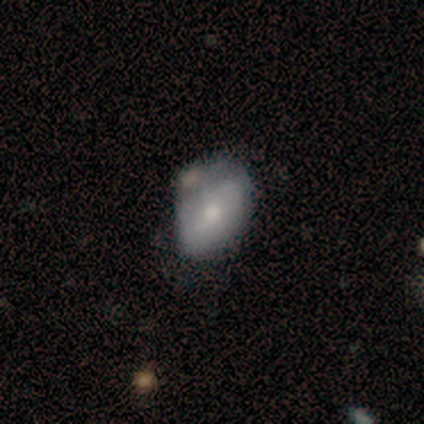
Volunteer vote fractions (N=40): Volunteers were most divided on "merging": minor disturbance: 39%, none: 36%, merger: 14%, major disturbance: 11%. More confident: how rounded — in between (84%); smooth or featured — smooth (62%).